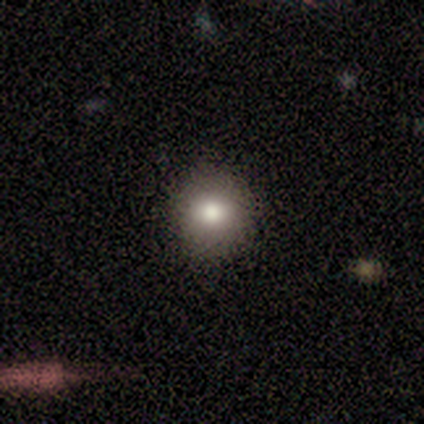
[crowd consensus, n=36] smooth-or-featured: smooth: 75% | featured or disk: 14% | star or artifact: 11%
  how-rounded: round: 93% | in between: 7% | cigar-shaped: 0%
  merging: none: 88% | minor disturbance: 12% | major disturbance: 0% | merger: 0%